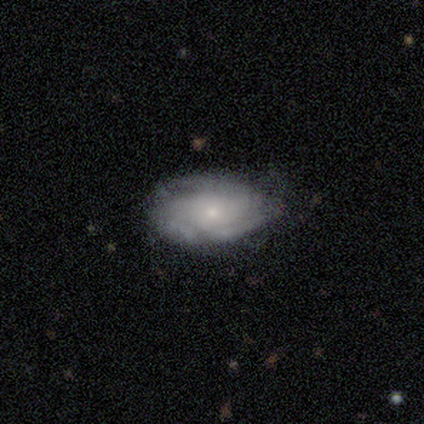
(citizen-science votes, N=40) Q: Smooth or featured?
A: featured or disk (55%); runner-up: smooth (40%)
Q: Edge-on disk?
A: no (100%)
Q: Bar?
A: no (82%); runner-up: weak (14%)
Q: Spiral arms?
A: yes (77%); runner-up: no (23%)
Q: Spiral winding?
A: tight (82%); runner-up: loose (12%)
Q: Spiral arm count?
A: 3 (47%); runner-up: can't tell (35%)
Q: Bulge size?
A: small (68%); runner-up: moderate (18%)
Q: Merging?
A: none (61%); runner-up: minor disturbance (32%)